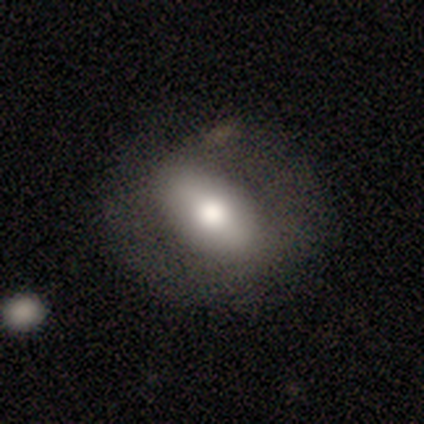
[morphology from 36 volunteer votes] Smooth or featured? smooth (61%)
How rounded? in between (86%)
Merging? none (80%)